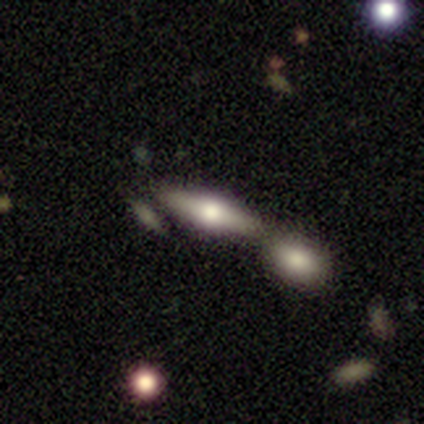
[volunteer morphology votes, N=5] Q: Smooth or featured?
A: smooth (80%); runner-up: featured or disk (20%)
Q: How rounded?
A: in between (50%); tied with: cigar-shaped (50%)
Q: Merging?
A: none (80%); runner-up: minor disturbance (20%)